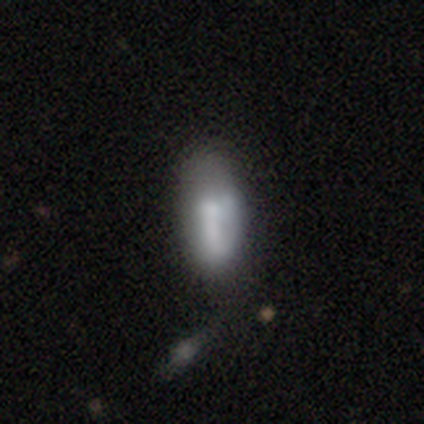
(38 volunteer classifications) Overall: smooth (55%; featured or disk 42%). How rounded: in between (76%). Merging: none (32%; minor disturbance 14%).